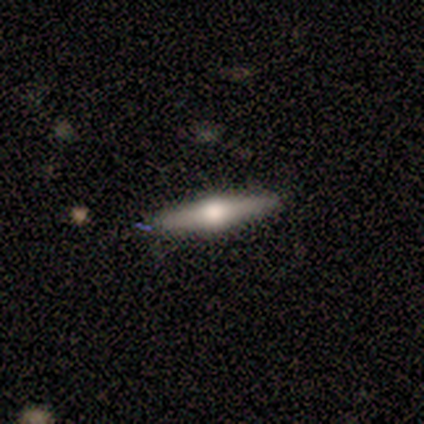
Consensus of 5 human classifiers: Smooth or featured: featured or disk — 60% (smooth — 40%)
Edge-on disk: yes — 100%
Edge-on bulge: rounded — 100%
Merging: none — 100%